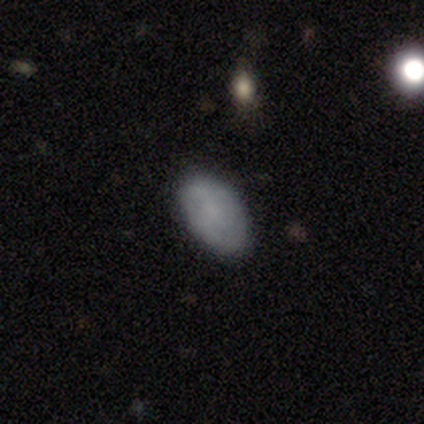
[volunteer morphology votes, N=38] Smooth or featured? smooth (74%)
How rounded? in between (96%)
Merging? none (84%)